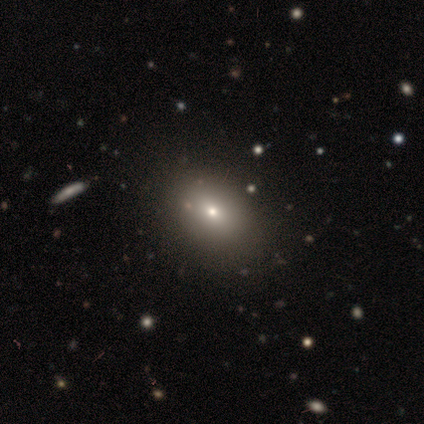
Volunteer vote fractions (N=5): Smooth or featured?
  - star or artifact: 80% *
  - smooth: 20%
  - featured or disk: 0%